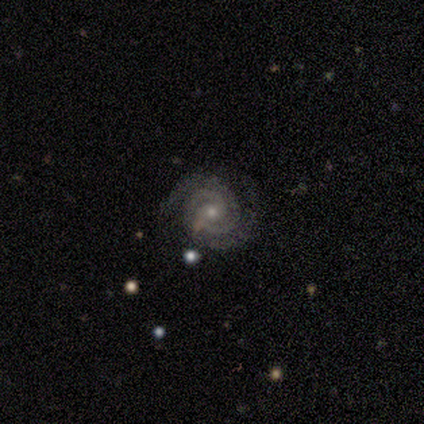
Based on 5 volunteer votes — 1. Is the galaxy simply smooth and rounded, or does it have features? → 100% featured or disk, 0% smooth, 0% star or artifact.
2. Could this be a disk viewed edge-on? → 100% no, 0% yes.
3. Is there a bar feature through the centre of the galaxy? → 80% no, 20% weak, 0% strong.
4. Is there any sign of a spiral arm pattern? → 100% yes, 0% no.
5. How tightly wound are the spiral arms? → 80% tight, 20% medium, 0% loose.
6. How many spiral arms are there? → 100% 2, 0% 1, 0% 3, 0% 4, 0% more than 4, 0% can't tell.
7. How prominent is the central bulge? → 60% small, 40% moderate, 0% dominant, 0% large, 0% none.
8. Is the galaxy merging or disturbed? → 100% none, 0% minor disturbance, 0% major disturbance, 0% merger.